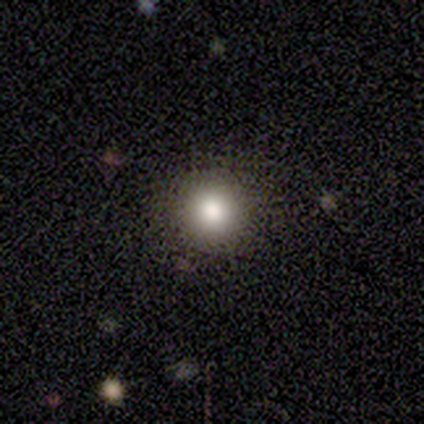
Smooth or featured? 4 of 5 (80%) said smooth. How rounded? 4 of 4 (100%) said round. Merging? 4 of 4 (100%) said none.